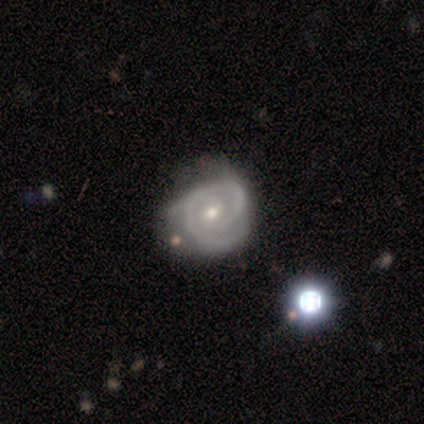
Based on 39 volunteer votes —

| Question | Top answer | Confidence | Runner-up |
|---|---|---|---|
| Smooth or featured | featured or disk | 92% | star or artifact (5%) |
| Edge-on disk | no | 100% | — |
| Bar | no | 69% | weak (28%) |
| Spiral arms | yes | 94% | no (6%) |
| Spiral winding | tight | 56% | medium (41%) |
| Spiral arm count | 2 | 65% | 3 (21%) |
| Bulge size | small | 53% | moderate (44%) |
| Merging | none | 30% | minor disturbance (24%) |